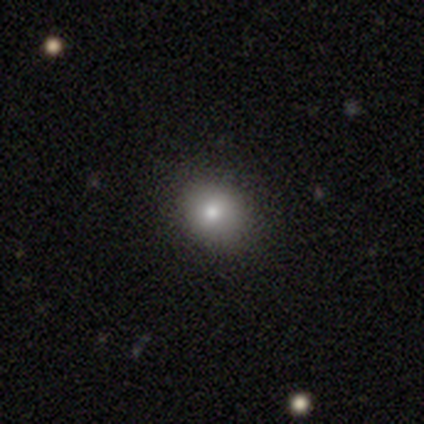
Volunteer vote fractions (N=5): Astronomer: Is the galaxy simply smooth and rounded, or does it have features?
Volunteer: smooth — 80%.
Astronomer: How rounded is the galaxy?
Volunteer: round — 75%.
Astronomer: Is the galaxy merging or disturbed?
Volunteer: none — 100%.